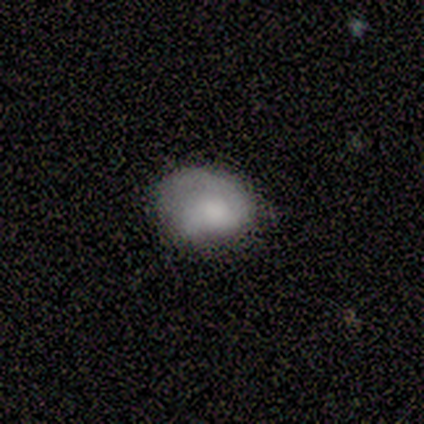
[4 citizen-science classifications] Morphology: type=smooth (50%); roundness=round (50%, tied with in between); merging=none (33%, tied with minor disturbance and major disturbance).